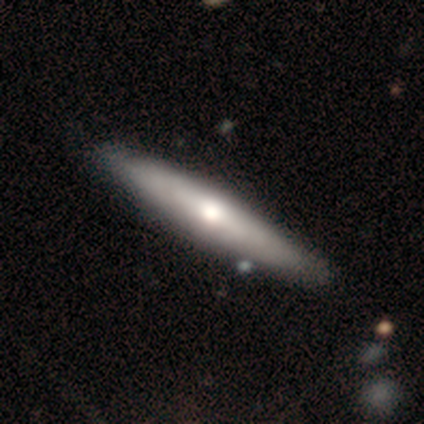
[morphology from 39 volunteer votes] Smooth or featured?
  - featured or disk: 59% *
  - smooth: 41%
  - star or artifact: 0%
Edge-on disk?
  - yes: 91% *
  - no: 9%
Edge-on bulge?
  - rounded: 86% *
  - none: 10%
  - boxy: 5%
Merging?
  - none: 69% *
  - minor disturbance: 5%
  - major disturbance: 3%
  - merger: 0%